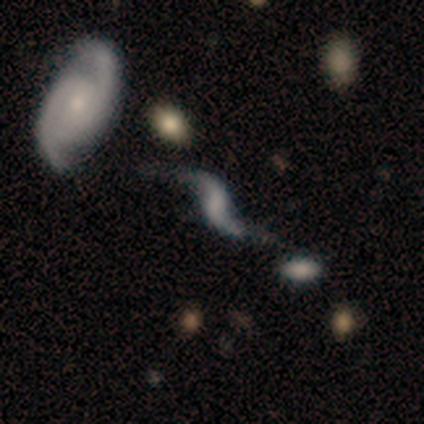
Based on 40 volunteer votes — Morphology: type=featured or disk (95%); edge-on=no (97%); bar=weak (54%); spiral arms=yes (84%); winding=loose (87%); arm count=2 (100%); bulge=none (70%); merging=none (58%).